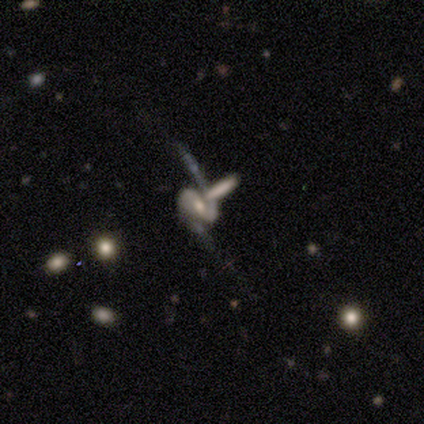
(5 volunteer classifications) Q: Smooth or featured?
A: featured or disk (100%)
Q: Edge-on disk?
A: no (100%)
Q: Bar?
A: no (60%); runner-up: strong (20%)
Q: Spiral arms?
A: yes (100%)
Q: Spiral winding?
A: medium (40%); tied with: loose (40%)
Q: Spiral arm count?
A: 2 (100%)
Q: Bulge size?
A: small (60%); runner-up: moderate (40%)
Q: Merging?
A: none (60%); runner-up: minor disturbance (20%)